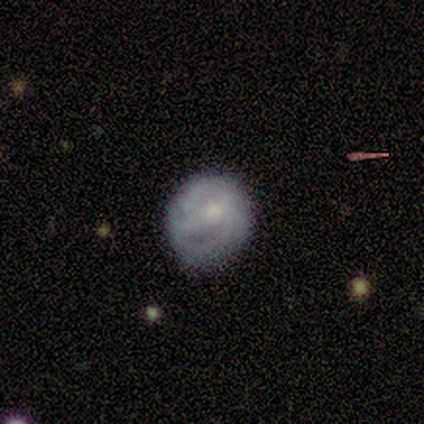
This appears to be a featured or disk galaxy (54%) with a weak bar (45%, tied with no), tight (36%, tied with loose) spiral arms (55%) and a small central bulge (60%). Merging: none (70%).